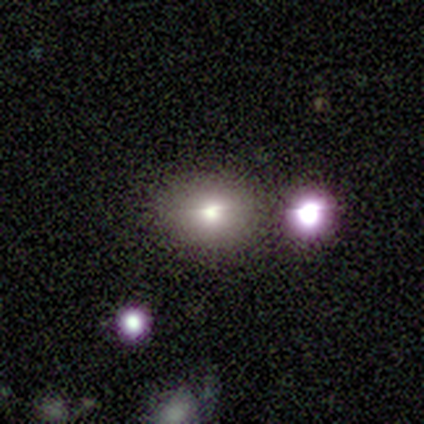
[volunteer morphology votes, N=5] Volunteers were most divided on "smooth or featured": star or artifact: 60%, smooth: 40%, featured or disk: 0%.